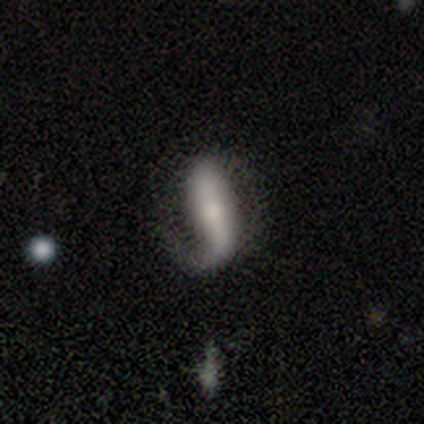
featured or disk 50%, smooth 25%, star or artifact 25%. Down the decision tree: edge-on disk — no (100%); bar — strong (50%, tied with no); spiral arms — yes (100%); spiral arm count — 1 (100%); spiral winding — loose (100%); bulge size — small (50%, tied with none); merging — none (67%).